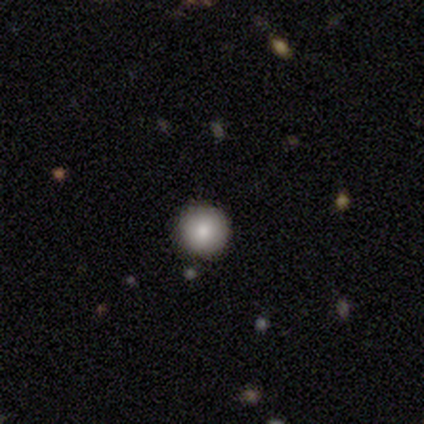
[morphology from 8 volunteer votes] smooth 100%, featured or disk 0%, star or artifact 0%. Down the decision tree: how rounded — round (100%); merging — none (100%).